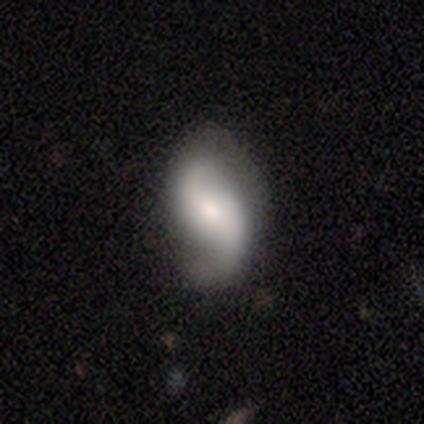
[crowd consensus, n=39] Smooth or featured?
  - featured or disk: 90% *
  - smooth: 8%
  - star or artifact: 3%
Edge-on disk?
  - no: 97% *
  - yes: 3%
Bar?
  - no: 44% *
  - weak: 35%
  - strong: 21%
Spiral arms?
  - yes: 97% *
  - no: 3%
Spiral winding?
  - loose: 73% *
  - medium: 21%
  - tight: 6%
Spiral arm count?
  - 2: 94% *
  - can't tell: 6%
  - 1: 0%
  - 3: 0%
  - 4: 0%
  - more than 4: 0%
Bulge size?
  - moderate: 50% *
  - small: 24%
  - large: 15%
  - dominant: 9%
  - none: 3%
Merging?
  - none: 55% *
  - minor disturbance: 13%
  - major disturbance: 8%
  - merger: 0%